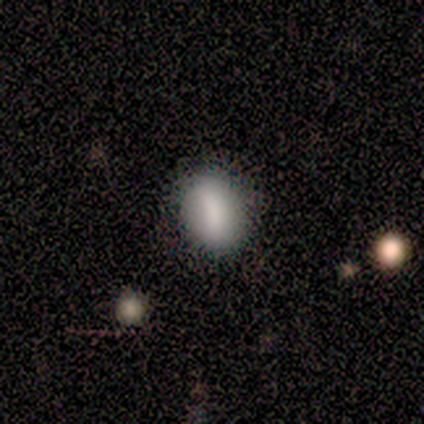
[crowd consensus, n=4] A smooth galaxy with no disk features (75%) that is in between round and cigar-shaped (67%).

Vote fractions:
- Smooth or featured? smooth: 75% / featured or disk: 25% / star or artifact: 0%
- How rounded? in between: 67% / round: 33% / cigar-shaped: 0%
- Merging? none: 75% / minor disturbance: 25% / major disturbance: 0% / merger: 0%